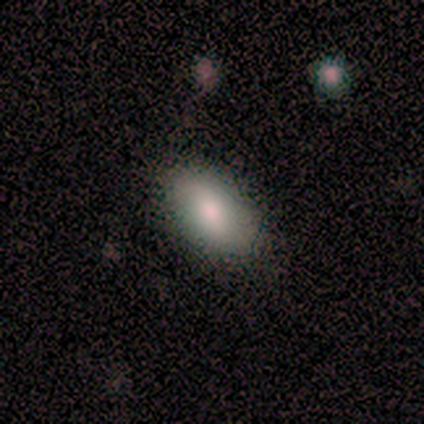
A smooth galaxy with no disk features (80%) that is in between round and cigar-shaped (100%).

Vote fractions:
- Smooth or featured? smooth: 80% / featured or disk: 20% / star or artifact: 0%
- How rounded? in between: 100% / round: 0% / cigar-shaped: 0%
- Merging? none: 100% / minor disturbance: 0% / major disturbance: 0% / merger: 0%